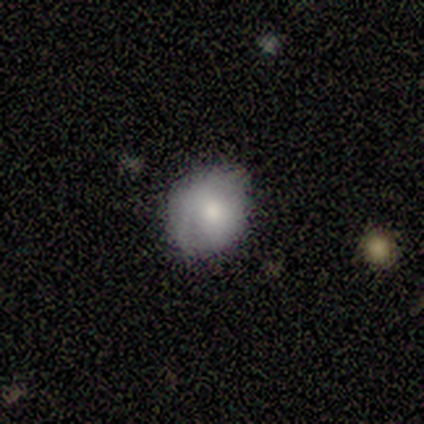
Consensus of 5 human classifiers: Overall: smooth (80%). How rounded: round (100%). Merging: none (60%; minor disturbance 20%).